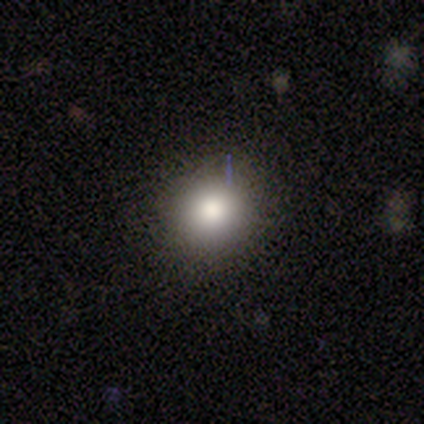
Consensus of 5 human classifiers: This is clearly a smooth galaxy (80%). How rounded: likely round (75%). Merging: clearly none (100%).